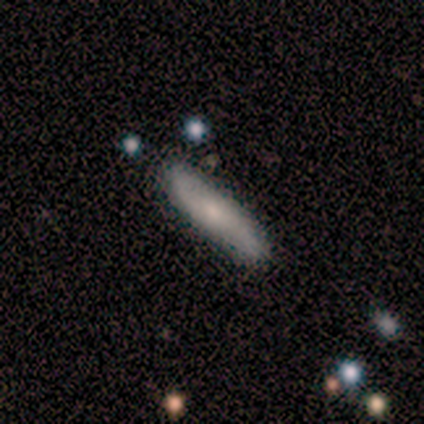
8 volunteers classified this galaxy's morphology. Smooth or featured: smooth — 75% (featured or disk — 25%)
How rounded: cigar-shaped — 67% (in between — 33%)
Merging: none — 88% (major disturbance — 12%)